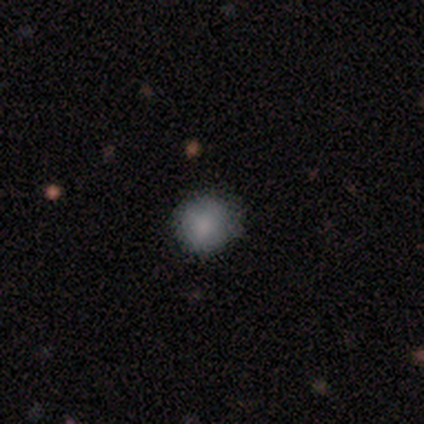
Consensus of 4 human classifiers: Volunteers were most divided on "smooth or featured": smooth: 75%, star or artifact: 25%, featured or disk: 0%. More confident: how rounded — round (100%); merging — none (100%).